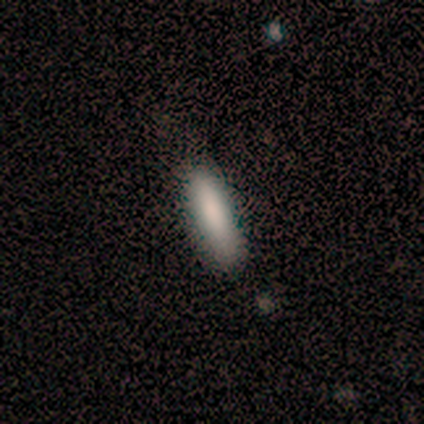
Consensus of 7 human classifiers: Smooth or featured: smooth — 100%
How rounded: in between — 57% (cigar-shaped — 43%)
Merging: minor disturbance — 57% (none — 43%)